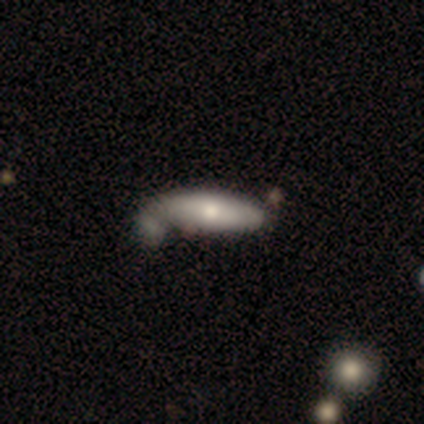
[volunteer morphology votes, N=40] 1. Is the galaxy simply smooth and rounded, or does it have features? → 80% smooth, 18% featured or disk, 2% star or artifact.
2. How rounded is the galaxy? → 53% in between, 47% cigar-shaped, 0% round.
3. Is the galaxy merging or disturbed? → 38% merger, 28% none, 13% major disturbance, 5% minor disturbance.